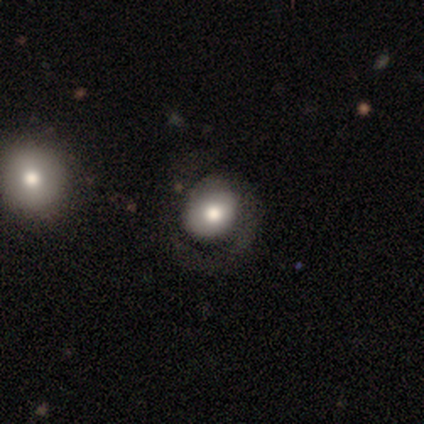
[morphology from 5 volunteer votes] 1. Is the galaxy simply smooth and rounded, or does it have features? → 60% featured or disk, 40% smooth, 0% star or artifact.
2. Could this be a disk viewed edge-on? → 100% no, 0% yes.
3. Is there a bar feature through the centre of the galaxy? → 100% no, 0% strong, 0% weak.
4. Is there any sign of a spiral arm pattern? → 67% yes, 33% no.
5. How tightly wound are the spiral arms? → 50% tight (tied), 50% loose (tied), 0% medium.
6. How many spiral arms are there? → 100% 1, 0% 2, 0% 3, 0% 4, 0% more than 4, 0% can't tell.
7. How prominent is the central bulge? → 67% large, 33% moderate, 0% dominant, 0% small, 0% none.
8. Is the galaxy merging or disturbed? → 80% none, 20% major disturbance, 0% minor disturbance, 0% merger.